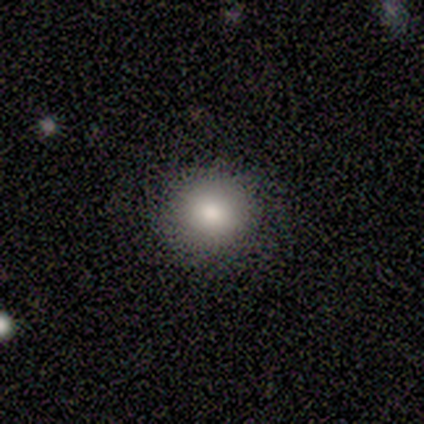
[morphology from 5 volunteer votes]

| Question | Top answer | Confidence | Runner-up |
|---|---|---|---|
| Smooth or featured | smooth | 80% | star or artifact (20%) |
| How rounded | round | 75% | in between (25%) |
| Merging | none | 75% | minor disturbance (25%) |